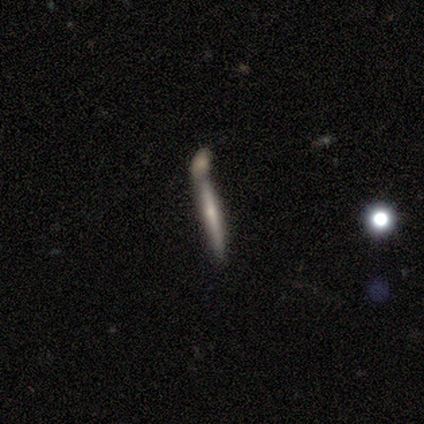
Smooth or featured?
  - featured or disk: 60% *
  - smooth: 20%
  - star or artifact: 20%
Edge-on disk?
  - yes: 100% *
  - no: 0%
Edge-on bulge?
  - rounded: 67% *
  - none: 33%
  - boxy: 0%
Merging?
  - merger: 75% *
  - major disturbance: 25%
  - none: 0%
  - minor disturbance: 0%